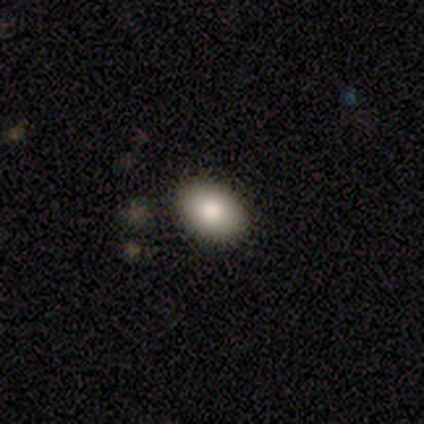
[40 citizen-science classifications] smooth_or_featured: smooth (p=0.90) [alt: featured or disk p=0.05]
how_rounded: in between (p=0.92) [alt: round p=0.08]
merging: none (p=0.89) [alt: minor disturbance p=0.05]